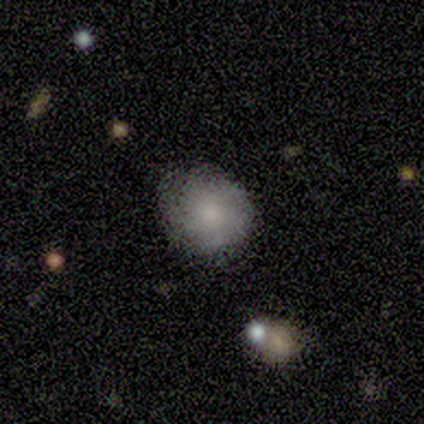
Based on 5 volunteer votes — smooth 80%, featured or disk 20%, star or artifact 0%. Down the decision tree: how rounded — round (100%); merging — minor disturbance (60%).